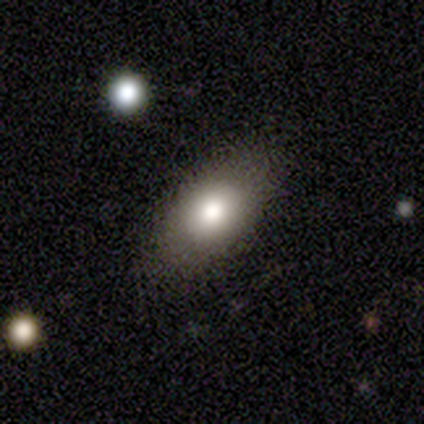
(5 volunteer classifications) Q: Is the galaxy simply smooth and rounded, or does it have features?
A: smooth — 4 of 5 (80%).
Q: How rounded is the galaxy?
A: in between — 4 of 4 (100%).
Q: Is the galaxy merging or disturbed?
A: none — 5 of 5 (100%).